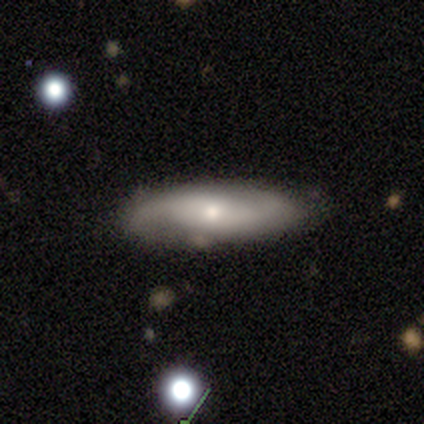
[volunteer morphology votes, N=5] Overall: featured or disk (80%). Edge-on disk: yes (50%, tied with no). Edge-on bulge: rounded (100%). Merging: none (60%; minor disturbance 40%).